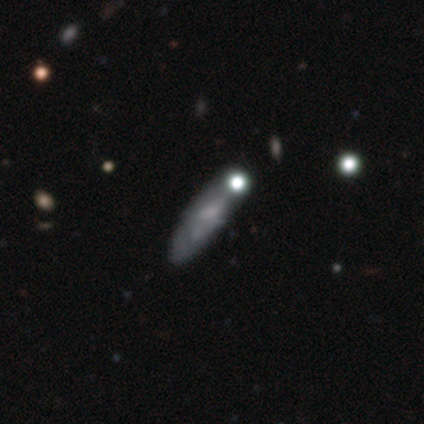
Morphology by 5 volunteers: smooth-or-featured: featured or disk: 60% | smooth: 40% | star or artifact: 0%
  disk-edge-on: no: 100% | yes: 0%
    bar: no: 100% | strong: 0% | weak: 0%
    has-spiral-arms: no: 100% | yes: 0%
    bulge-size: none: 100% | dominant: 0% | large: 0% | moderate: 0% | small: 0%
  merging: none: 40% (tied) | minor disturbance: 40% (tied) | major disturbance: 20% | merger: 0%